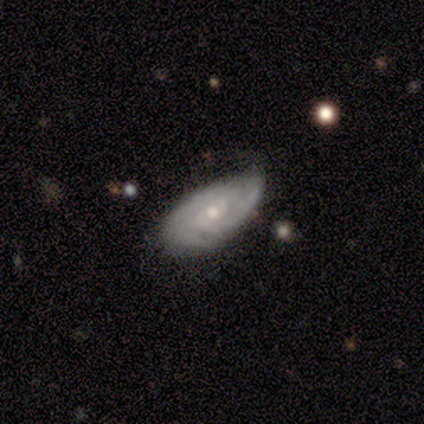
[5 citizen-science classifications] A featured or disk galaxy (80%) with a weak bar (75%), 2 (50%, tied with can't tell) tight (75%) spiral arms (100%) and a small central bulge (75%). Merging: none (80%).